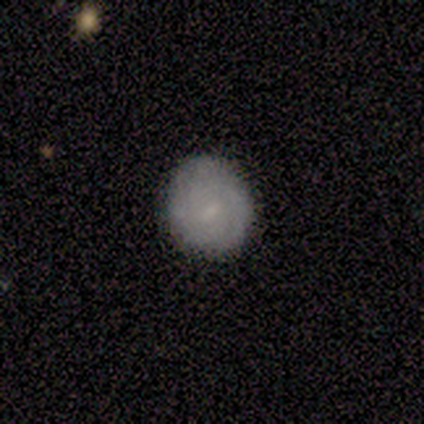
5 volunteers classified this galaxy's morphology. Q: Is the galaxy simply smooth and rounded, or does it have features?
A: smooth — 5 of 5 (100%).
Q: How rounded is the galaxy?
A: round — 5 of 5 (100%).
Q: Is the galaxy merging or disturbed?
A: none — 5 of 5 (100%).